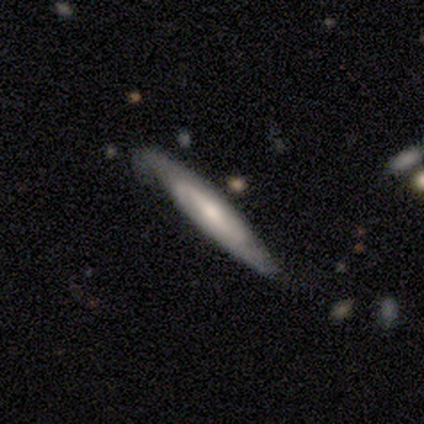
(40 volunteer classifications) Smooth or featured: featured or disk — 72% (smooth — 22%)
Edge-on disk: no — 52% (yes — 48%)
Bar: no — 53% (strong — 27%)
Spiral arms: yes — 87% (no — 13%)
Spiral winding: tight — 38% (tied with medium — 38%)
Spiral arm count: 2 — 69% (can't tell — 23%)
Bulge size: moderate — 40% (tied with small — 40%)
Merging: none — 63% (minor disturbance — 32%)